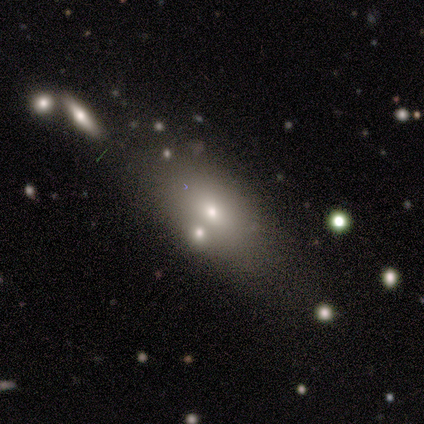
Volunteers were most divided on "smooth or featured": smooth: 60%, featured or disk: 20%, star or artifact: 20%. More confident: how rounded — in between (100%); merging — none (75%).